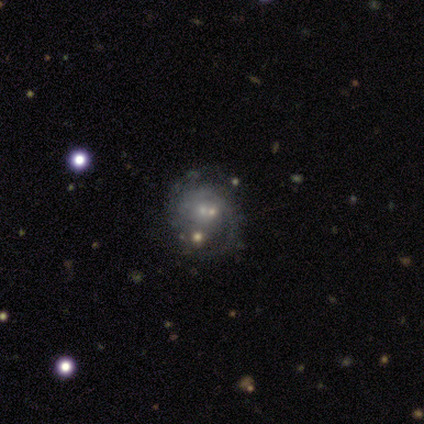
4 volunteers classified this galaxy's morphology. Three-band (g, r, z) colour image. It shows a featured or disk galaxy (100%) with no bar (100%), 2 (75%) medium (75%) spiral arms (100%) and a moderate central bulge (50%, tied with small). Merging: none (100%).